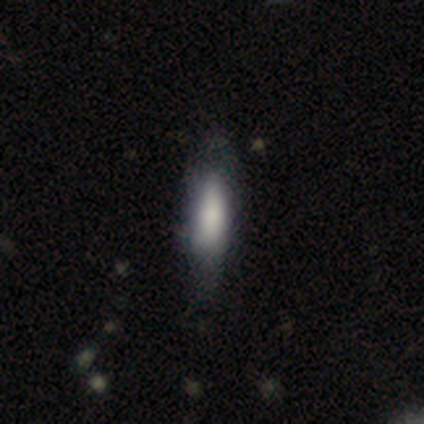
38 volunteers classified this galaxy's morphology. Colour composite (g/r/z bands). It shows a smooth galaxy with no disk features (82%) that is in between round and cigar-shaped (55%). Merging: none (41%).